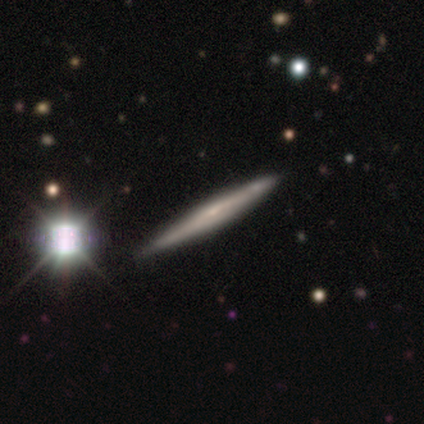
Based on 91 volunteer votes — Morphology: type=featured or disk (69%); edge-on=yes (92%); edge-on bulge=none (62%); merging=none (67%).